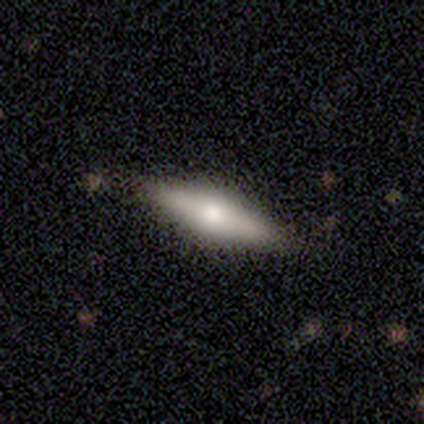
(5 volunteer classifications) A featured or disk galaxy (60%) viewed edge-on (100%) with a rounded central bulge (67%). Merging: none (60%).